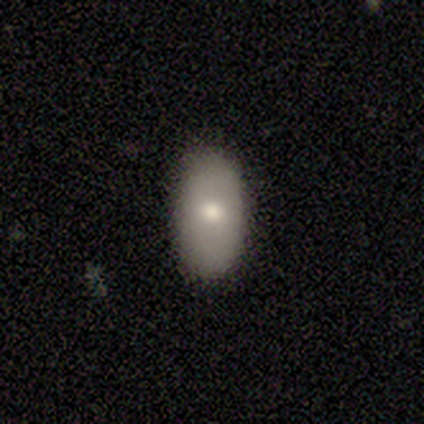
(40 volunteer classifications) This is likely a smooth galaxy (60%). How rounded: clearly in between (96%). Merging: clearly none (82%).